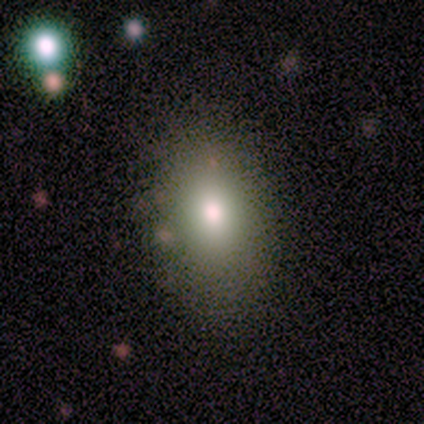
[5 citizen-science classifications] smooth 60%, featured or disk 20%, star or artifact 20%. Down the decision tree: how rounded — in between (100%); merging — none (50%, tied with minor disturbance).